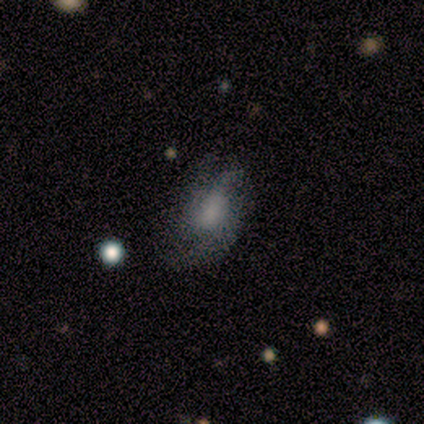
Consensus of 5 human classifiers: Volunteers were most divided on "smooth or featured" (2-way tie): smooth: 40%, featured or disk: 40%, star or artifact: 20%. More confident: how rounded — in between (100%); merging — none (50%).